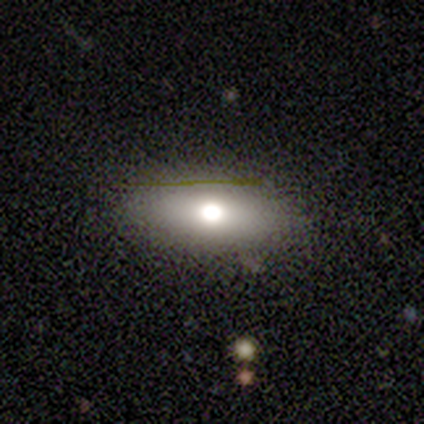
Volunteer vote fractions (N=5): Smooth or featured?
  - smooth: 100% *
  - featured or disk: 0%
  - star or artifact: 0%
How rounded?
  - in between: 100% *
  - round: 0%
  - cigar-shaped: 0%
Merging?
  - none: 80% *
  - minor disturbance: 20%
  - major disturbance: 0%
  - merger: 0%